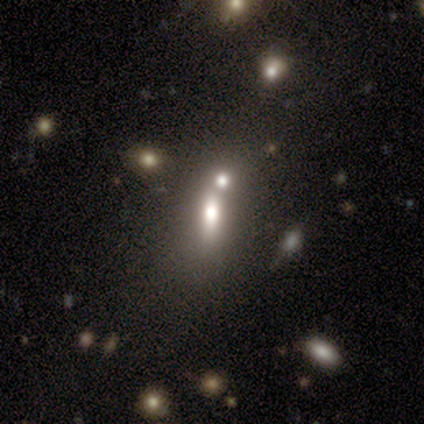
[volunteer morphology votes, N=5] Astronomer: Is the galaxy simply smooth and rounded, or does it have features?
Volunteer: smooth — 80%.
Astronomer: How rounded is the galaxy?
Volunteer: in between — 50%.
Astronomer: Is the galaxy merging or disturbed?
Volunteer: merger — 75%.